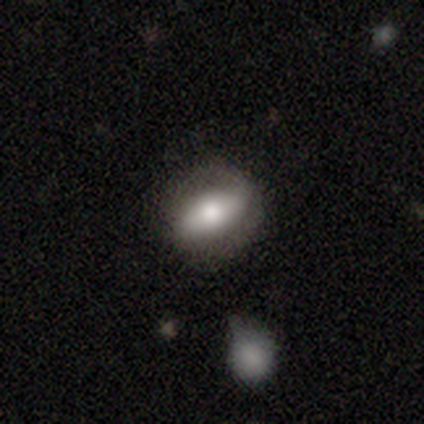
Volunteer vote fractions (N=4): Overall: smooth (50%; featured or disk 25%). How rounded: in between (100%). Merging: none (67%; minor disturbance 33%).